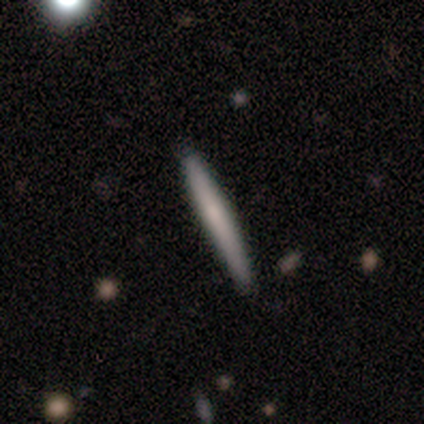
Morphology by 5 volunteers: Smooth or featured? 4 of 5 (80%) said smooth. How rounded? 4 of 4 (100%) said cigar-shaped. Merging? 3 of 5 (60%) said none.